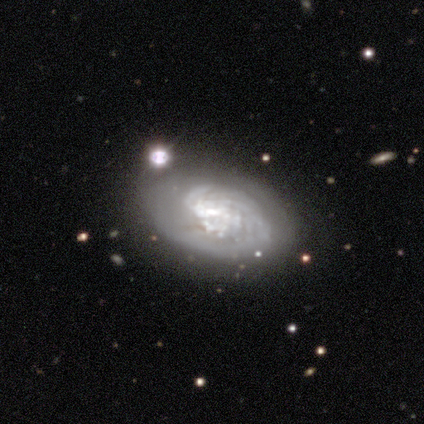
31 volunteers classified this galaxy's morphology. smooth_or_featured: featured or disk (p=0.77) [alt: smooth p=0.16]
disk_edge_on: no (p=0.96) [alt: yes p=0.04]
bar: no (p=0.57) [alt: weak p=0.35]
has_spiral_arms: yes (p=0.74) [alt: no p=0.26]
spiral_winding: tight (p=0.76) [alt: medium p=0.24]
spiral_arm_count: can't tell (p=0.41) [alt: 2 p=0.24]
bulge_size: none (p=0.43) [alt: large p=0.17]
merging: none (p=0.55) [alt: minor disturbance p=0.17]